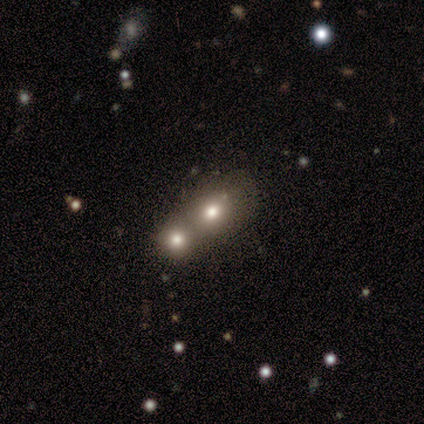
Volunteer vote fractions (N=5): This appears to be a smooth galaxy with no disk features (80%) that is round (75%). Merging: merger (80%).